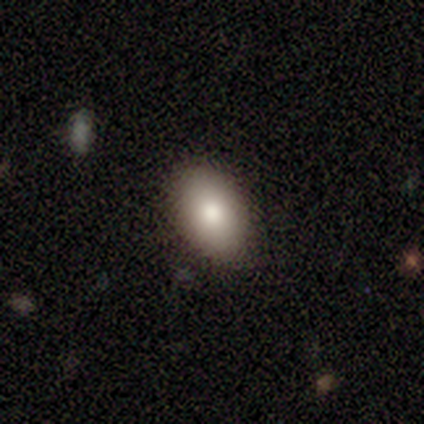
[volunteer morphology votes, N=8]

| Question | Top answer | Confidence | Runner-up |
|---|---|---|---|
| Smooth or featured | smooth | 88% | featured or disk (12%) |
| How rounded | in between | 71% | round (29%) |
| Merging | none | 100% | — |